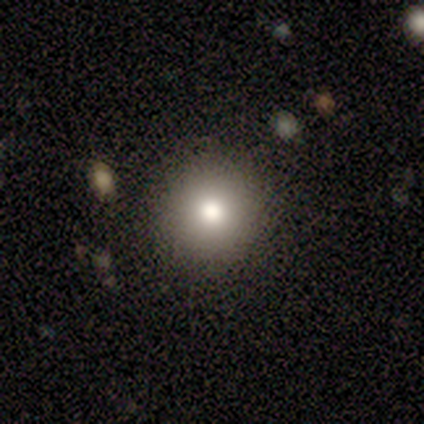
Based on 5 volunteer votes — A smooth galaxy with no disk features (80%) that is round (100%).

Vote fractions:
- Smooth or featured? smooth: 80% / featured or disk: 20% / star or artifact: 0%
- How rounded? round: 100% / in between: 0% / cigar-shaped: 0%
- Merging? none: 100% / minor disturbance: 0% / major disturbance: 0% / merger: 0%